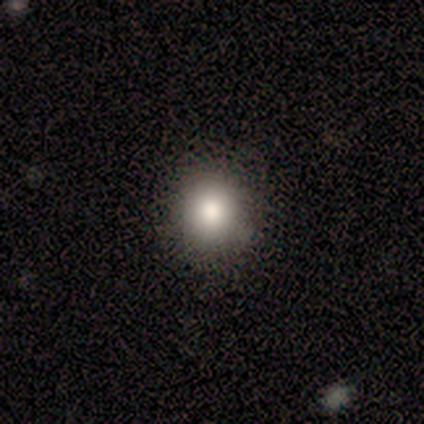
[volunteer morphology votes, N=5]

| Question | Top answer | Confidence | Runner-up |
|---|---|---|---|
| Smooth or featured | smooth | 80% | featured or disk (20%) |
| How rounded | round | 100% | — |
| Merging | none | 80% | minor disturbance (20%) |